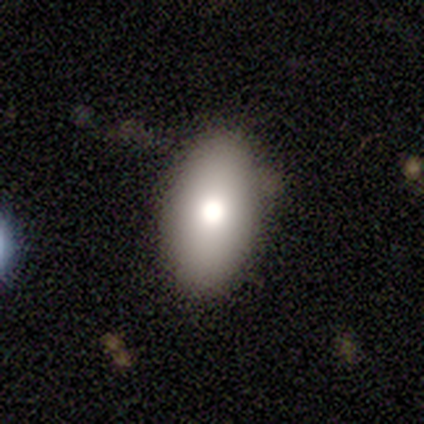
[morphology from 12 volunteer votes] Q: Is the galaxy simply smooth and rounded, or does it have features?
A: smooth — 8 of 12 (67%).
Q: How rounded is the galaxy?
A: in between — 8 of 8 (100%).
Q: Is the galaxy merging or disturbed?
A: none — 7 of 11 (64%).